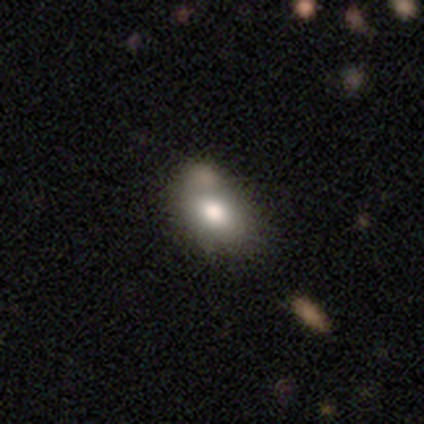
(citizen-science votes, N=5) Smooth or featured?
  - smooth: 100% *
  - featured or disk: 0%
  - star or artifact: 0%
How rounded?
  - in between: 80% *
  - round: 20%
  - cigar-shaped: 0%
Merging?
  - none: 60% *
  - merger: 40%
  - minor disturbance: 0%
  - major disturbance: 0%